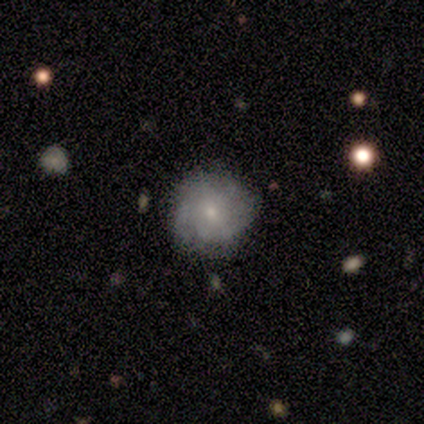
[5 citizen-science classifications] Overall: smooth (80%). How rounded: round (100%). Merging: none (100%).